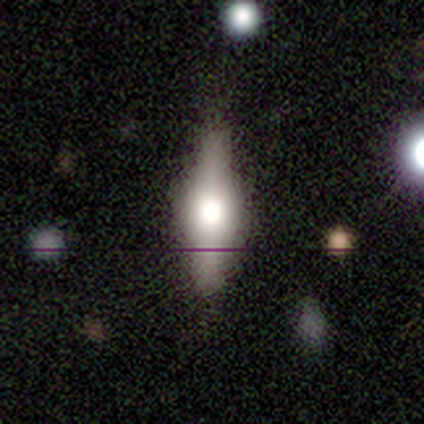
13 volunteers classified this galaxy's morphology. A featured or disk galaxy (54%) viewed edge-on (100%) with a rounded central bulge (100%). Merging: none (75%).